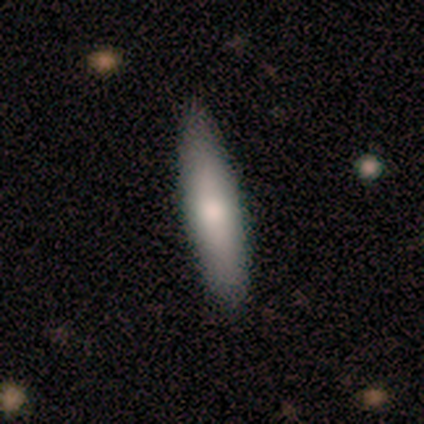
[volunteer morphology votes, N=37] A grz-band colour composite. It shows a smooth galaxy with no disk features (62%) that is cigar-shaped (91%). Merging: none (75%).